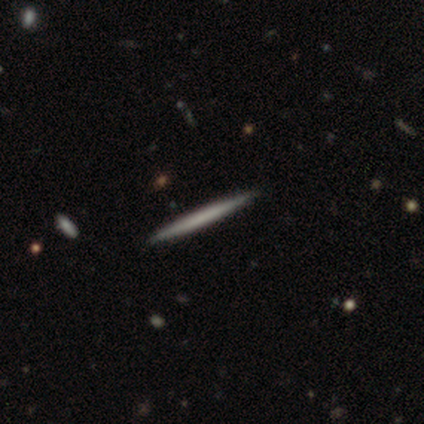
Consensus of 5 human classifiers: This is likely a featured or disk galaxy (60%). It is clearly viewed edge-on (100%). Edge-on bulge: clearly none (100%). Merging: clearly none (80%).